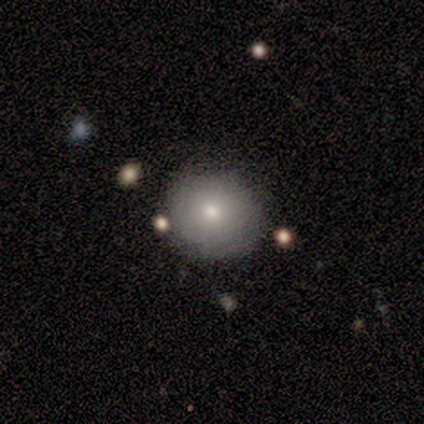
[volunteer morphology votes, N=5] smooth_or_featured: smooth (p=1.00)
how_rounded: round (p=1.00)
merging: none (p=0.80) [alt: minor disturbance p=0.20]